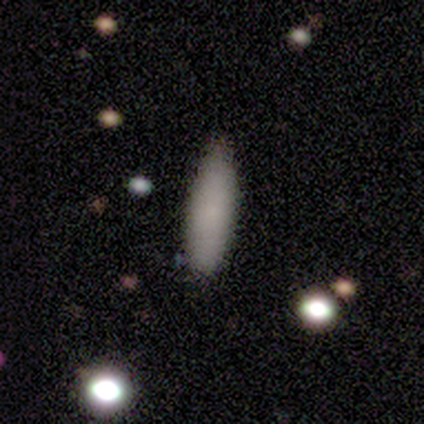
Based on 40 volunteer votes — Smooth or featured?
  - smooth: 75% *
  - featured or disk: 12%
  - star or artifact: 12%
How rounded?
  - cigar-shaped: 63% *
  - in between: 37%
  - round: 0%
Merging?
  - none: 83% *
  - minor disturbance: 14%
  - major disturbance: 3%
  - merger: 0%